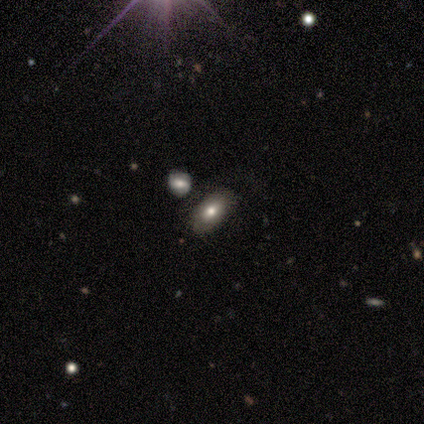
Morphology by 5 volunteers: A smooth galaxy with no disk features (80%) that is in between round and cigar-shaped (100%). Merging: none (75%).